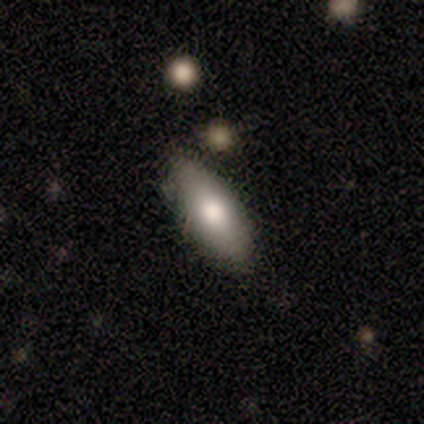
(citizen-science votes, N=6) smooth 83%, star or artifact 17%, featured or disk 0%. Down the decision tree: how rounded — in between (100%); merging — none (80%).